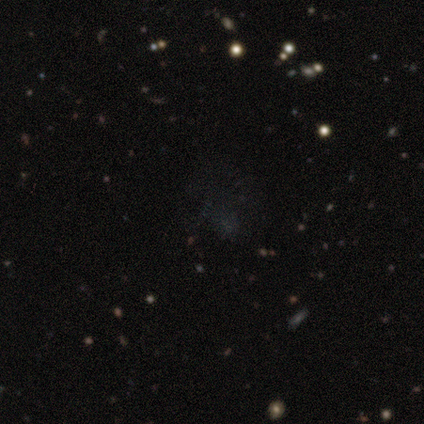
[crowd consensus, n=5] Consensus on every question: smooth or featured — star or artifact (100%).